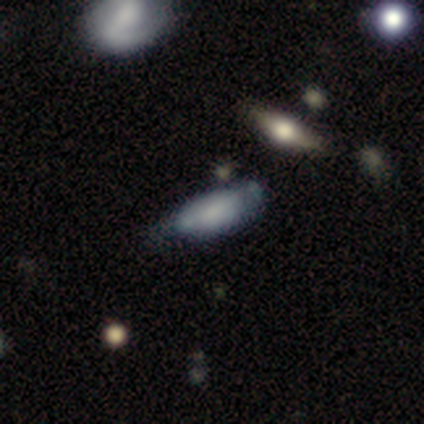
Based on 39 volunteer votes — This is likely a smooth galaxy (67%). How rounded: clearly in between (81%). Merging: marginally minor disturbance (45%).